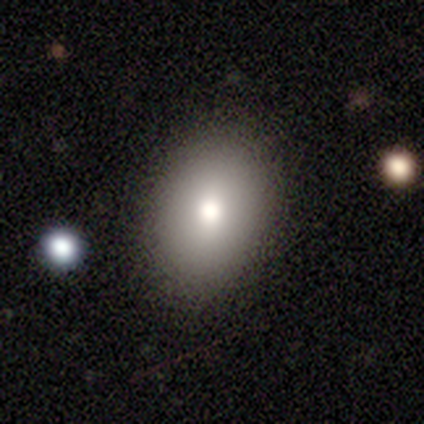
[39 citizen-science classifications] Overall: smooth (79%). How rounded: in between (81%). Merging: none (92%).